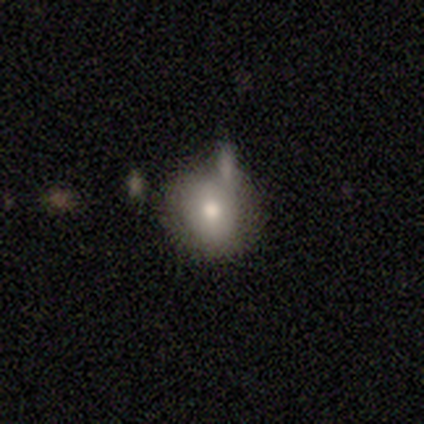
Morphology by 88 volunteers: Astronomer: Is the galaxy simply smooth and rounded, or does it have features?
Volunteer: smooth — 73%.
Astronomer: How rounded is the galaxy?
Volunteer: round — 81%.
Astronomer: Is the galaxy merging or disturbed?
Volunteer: none — 47% (runner-up: minor disturbance, 29%).